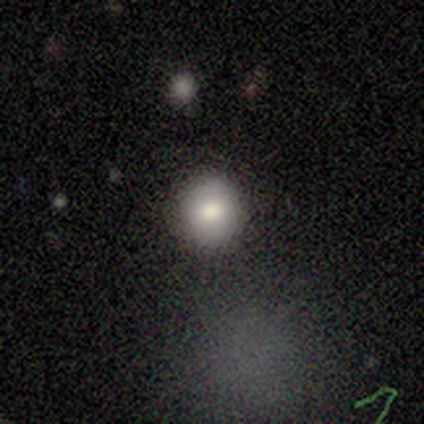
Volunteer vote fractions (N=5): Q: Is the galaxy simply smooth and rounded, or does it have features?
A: smooth — 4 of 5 (80%).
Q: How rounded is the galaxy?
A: round — 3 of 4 (75%).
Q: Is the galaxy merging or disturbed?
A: none — 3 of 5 (60%).